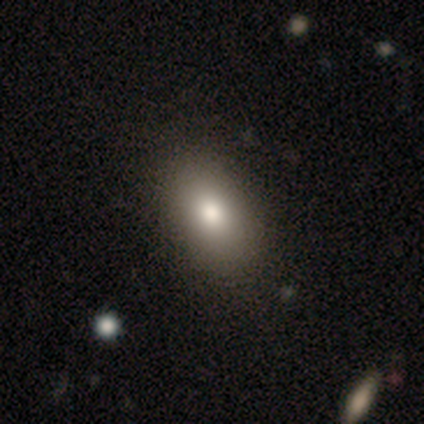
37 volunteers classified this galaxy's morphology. Smooth or featured? smooth (81%)
How rounded? in between (87%)
Merging? none (62%)